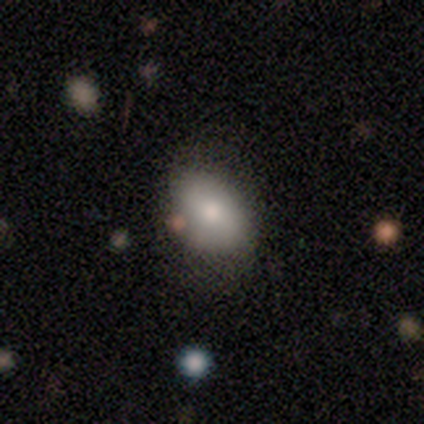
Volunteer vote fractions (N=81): smooth_or_featured: smooth (p=0.85) [alt: featured or disk p=0.10]
how_rounded: in between (p=0.75) [alt: round p=0.25]
merging: none (p=0.60) [alt: minor disturbance p=0.26]